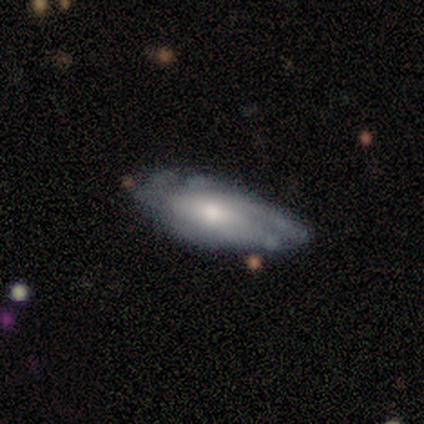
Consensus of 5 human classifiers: Overall: featured or disk (80%). Edge-on disk: no (100%). Bar: no (75%). Spiral arms: yes (100%). Spiral arm count: can't tell (75%). Spiral winding: medium (50%; tight 25%). Bulge size: moderate (75%). Merging: none (75%).